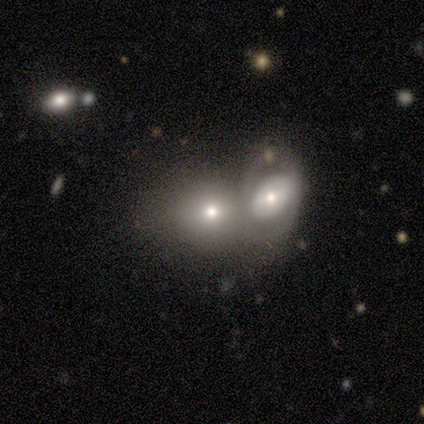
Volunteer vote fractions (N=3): A smooth galaxy with no disk features (33%, tied with featured or disk and star or artifact) that is in between round and cigar-shaped (100%).

Vote fractions:
- Smooth or featured? smooth: 33% (tied) / featured or disk: 33% (tied) / star or artifact: 33% (tied)
- How rounded? in between: 100% / round: 0% / cigar-shaped: 0%
- Merging? merger: 100% / none: 0% / minor disturbance: 0% / major disturbance: 0%